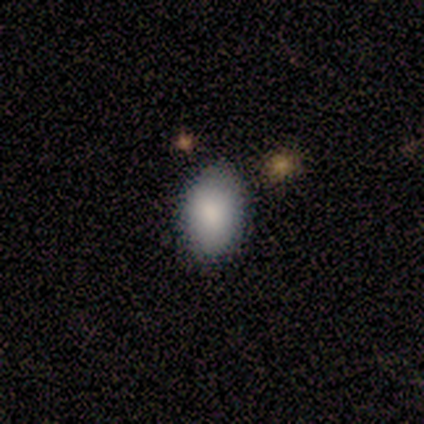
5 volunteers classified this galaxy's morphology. smooth-or-featured: smooth: 80% | featured or disk: 20% | star or artifact: 0%
  how-rounded: in between: 100% | round: 0% | cigar-shaped: 0%
  merging: none: 100% | minor disturbance: 0% | major disturbance: 0% | merger: 0%